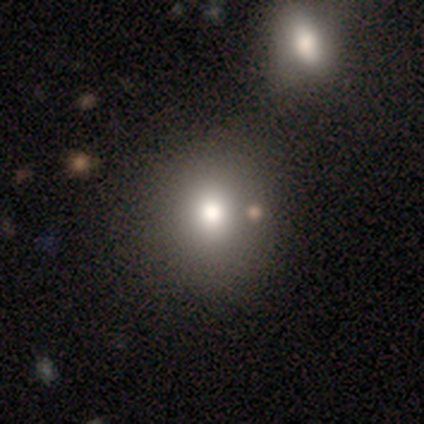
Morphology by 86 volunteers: Smooth or featured? smooth (73%)
How rounded? round (83%)
Merging? none (75%)